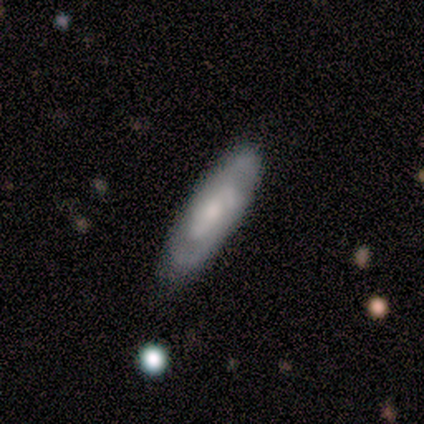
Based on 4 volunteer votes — Smooth or featured: featured or disk — 75% (smooth — 25%)
Edge-on disk: yes — 67% (no — 33%)
Edge-on bulge: none — 100%
Merging: none — 100%